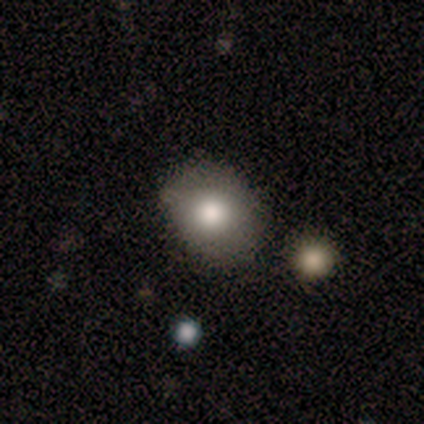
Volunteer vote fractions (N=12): smooth-or-featured: smooth: 92% | featured or disk: 8% | star or artifact: 0%
  how-rounded: round: 55% | in between: 36% | cigar-shaped: 9%
  merging: none: 58% | minor disturbance: 33% | major disturbance: 8% | merger: 0%